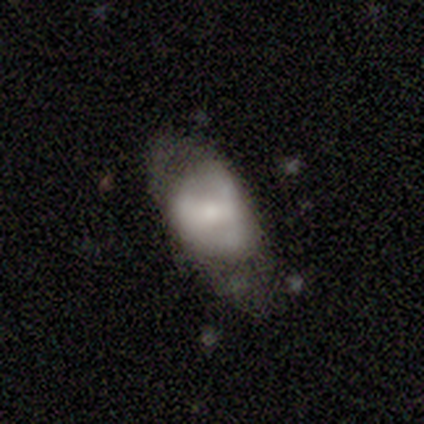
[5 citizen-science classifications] Smooth or featured?
  - featured or disk: 60% *
  - smooth: 40%
  - star or artifact: 0%
Edge-on disk?
  - no: 100% *
  - yes: 0%
Bar?
  - weak: 67% *
  - no: 33%
  - strong: 0%
Spiral arms?
  - no: 100% *
  - yes: 0%
Bulge size?
  - small: 67% *
  - moderate: 33%
  - dominant: 0%
  - large: 0%
  - none: 0%
Merging?
  - minor disturbance: 60% *
  - none: 20%
  - major disturbance: 20%
  - merger: 0%